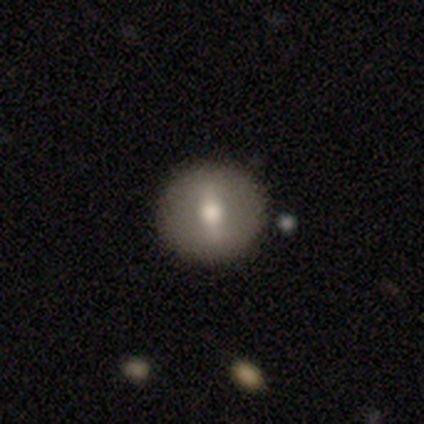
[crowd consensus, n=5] A featured or disk galaxy (80%) with a weak bar (50%), no spiral arms (100%) and a moderate central bulge (75%). Merging: none (100%).